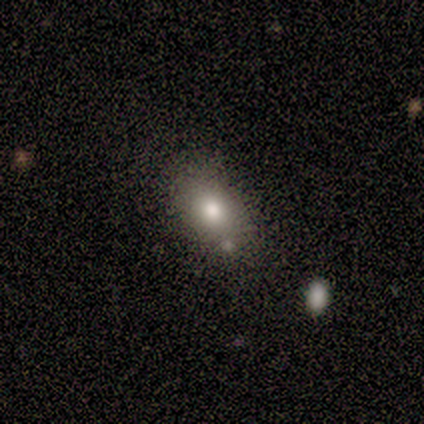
smooth 100%, featured or disk 0%, star or artifact 0%. Down the decision tree: how rounded — in between (83%); merging — none (83%).